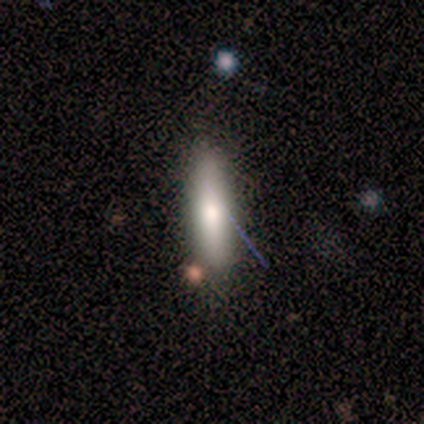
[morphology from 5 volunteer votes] Smooth or featured? 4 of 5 (80%) said smooth. How rounded? 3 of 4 (75%) said cigar-shaped. Merging? 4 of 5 (80%) said none.